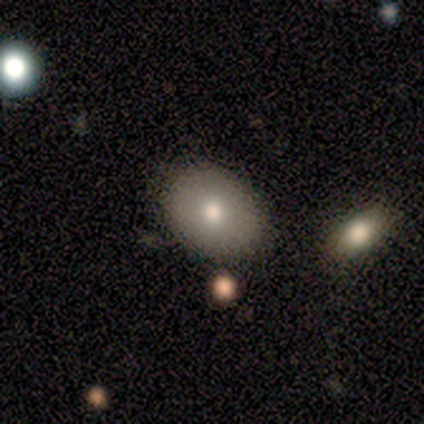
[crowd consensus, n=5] Smooth or featured: featured or disk — 60% (smooth — 40%)
Edge-on disk: no — 67% (yes — 33%)
Bar: no — 100%
Spiral arms: no — 100%
Bulge size: moderate — 100%
Merging: none — 80% (minor disturbance — 20%)